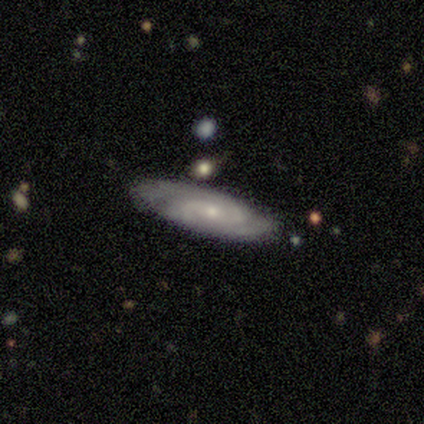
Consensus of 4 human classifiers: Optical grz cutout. It shows a featured or disk galaxy (75%) with no bar (100%), 2 (50%, tied with 3) tight (50%, tied with medium) spiral arms (100%) and a small central bulge (100%). Merging: none (100%).